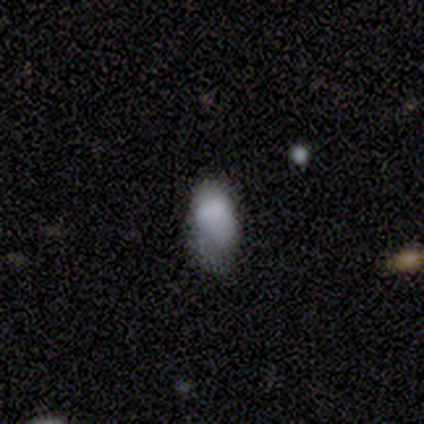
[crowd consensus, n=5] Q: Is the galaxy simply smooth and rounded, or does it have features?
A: smooth — 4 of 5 (80%).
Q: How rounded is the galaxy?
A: in between — 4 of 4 (100%).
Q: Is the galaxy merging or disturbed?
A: minor disturbance — 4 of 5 (80%).